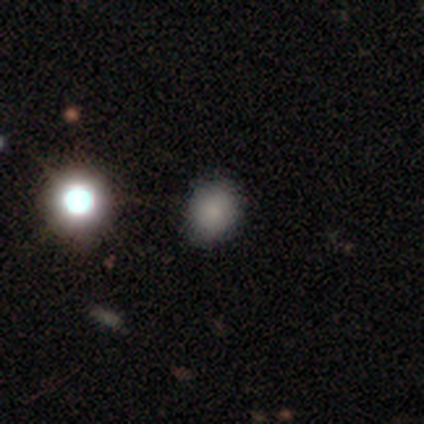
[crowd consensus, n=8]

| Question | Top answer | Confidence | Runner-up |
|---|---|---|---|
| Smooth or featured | smooth | 88% | star or artifact (12%) |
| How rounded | round | 57% | in between (43%) |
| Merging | none | 71% | minor disturbance (14%) |